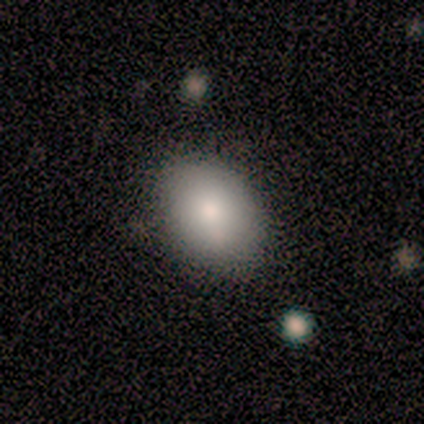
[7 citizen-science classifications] Overall: smooth (100%). How rounded: in between (86%). Merging: none (100%).